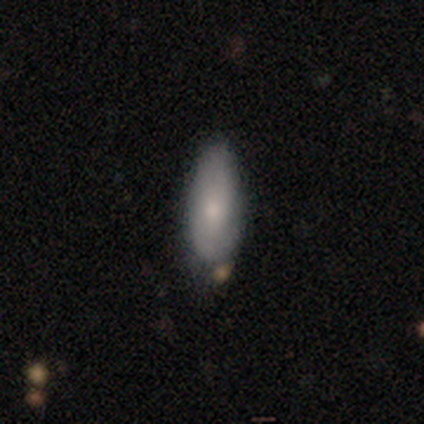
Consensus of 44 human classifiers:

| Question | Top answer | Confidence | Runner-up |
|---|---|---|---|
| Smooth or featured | smooth | 70% | star or artifact (16%) |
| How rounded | in between | 77% | cigar-shaped (23%) |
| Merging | none | 78% | minor disturbance (22%) |